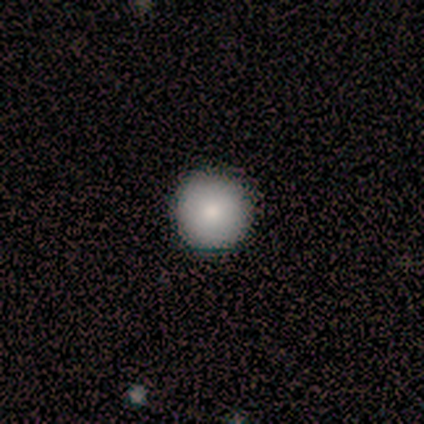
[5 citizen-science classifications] A smooth galaxy with no disk features (80%) that is round (100%).

Vote fractions:
- Smooth or featured? smooth: 80% / featured or disk: 20% / star or artifact: 0%
- How rounded? round: 100% / in between: 0% / cigar-shaped: 0%
- Merging? none: 100% / minor disturbance: 0% / major disturbance: 0% / merger: 0%